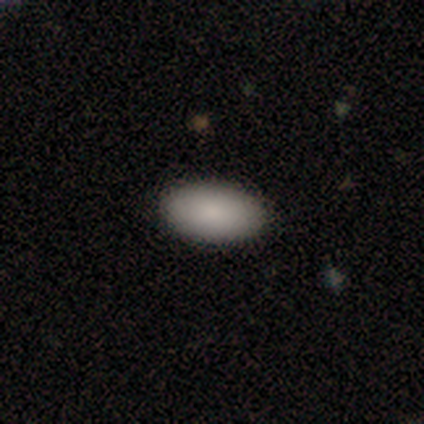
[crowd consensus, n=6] This is clearly a smooth galaxy (100%). How rounded: clearly in between (100%). Merging: clearly none (100%).